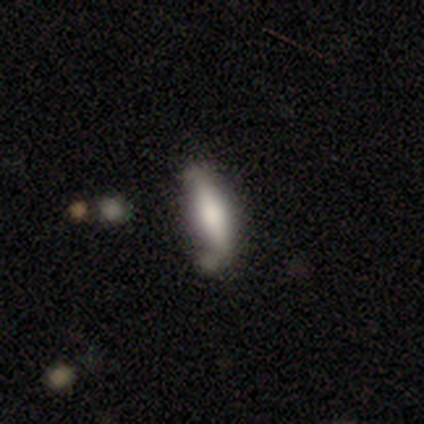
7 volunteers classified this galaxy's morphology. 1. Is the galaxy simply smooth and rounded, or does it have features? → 57% featured or disk, 43% smooth, 0% star or artifact.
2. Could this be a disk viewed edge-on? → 75% yes, 25% no.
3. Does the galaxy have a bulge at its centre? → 100% rounded, 0% boxy, 0% none.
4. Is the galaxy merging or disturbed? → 57% minor disturbance, 43% none, 0% major disturbance, 0% merger.